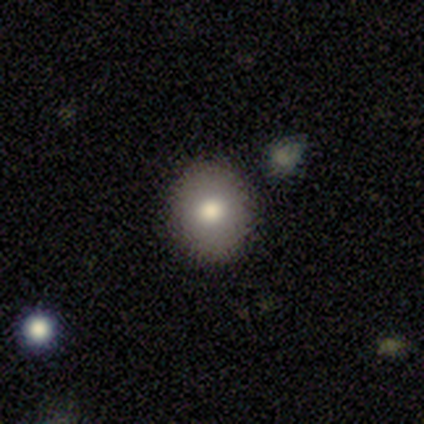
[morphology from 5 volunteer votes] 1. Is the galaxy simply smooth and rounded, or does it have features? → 80% smooth, 20% star or artifact, 0% featured or disk.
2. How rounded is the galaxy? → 75% round, 25% in between, 0% cigar-shaped.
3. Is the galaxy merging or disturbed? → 100% none, 0% minor disturbance, 0% major disturbance, 0% merger.